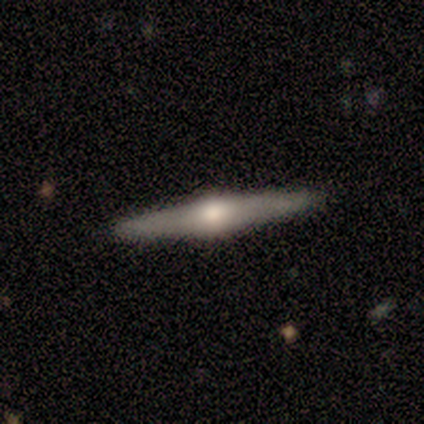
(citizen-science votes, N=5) smooth-or-featured: featured or disk: 60% | smooth: 20% | star or artifact: 20%
  disk-edge-on: yes: 100% | no: 0%
    edge-on-bulge: rounded: 100% | boxy: 0% | none: 0%
  merging: none: 100% | minor disturbance: 0% | major disturbance: 0% | merger: 0%